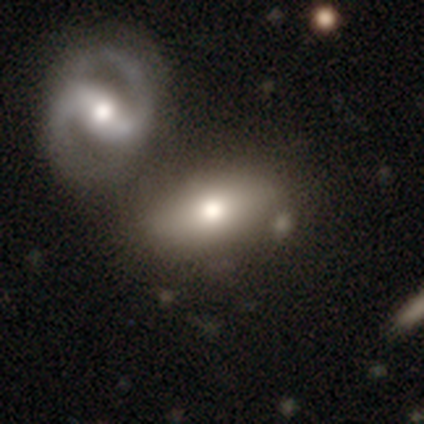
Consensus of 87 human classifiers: Volunteers were most divided on "merging": none: 45%, merger: 34%, major disturbance: 12%, minor disturbance: 10%. More confident: how rounded — in between (78%); smooth or featured — smooth (59%).